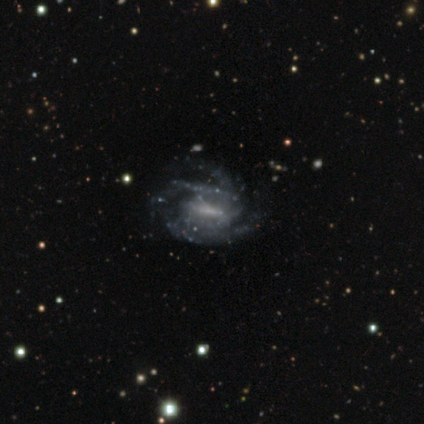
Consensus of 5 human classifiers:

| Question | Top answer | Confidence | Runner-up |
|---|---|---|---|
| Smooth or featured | featured or disk | 60% | smooth (20%) |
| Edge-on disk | no | 100% | — |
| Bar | strong | 67% | no (33%) |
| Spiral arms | yes | 100% | — |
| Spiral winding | tight | 67% | medium (33%) |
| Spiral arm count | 3 | 67% | can't tell (33%) |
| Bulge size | none | 100% | — |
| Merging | none | 50% | tied: minor disturbance (50%) |